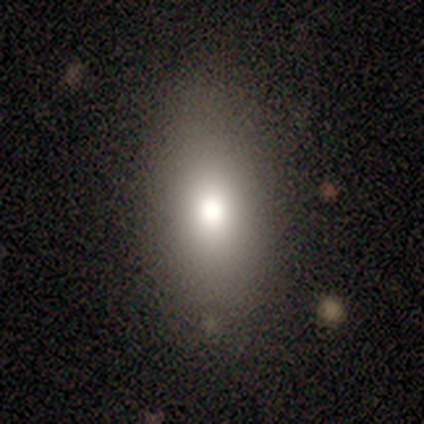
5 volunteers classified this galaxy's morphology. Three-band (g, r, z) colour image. It shows a smooth galaxy with no disk features (80%) that is in between round and cigar-shaped (100%). Merging: none (80%).